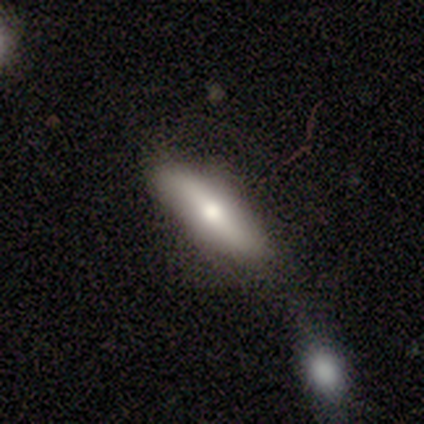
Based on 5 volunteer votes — Q: Smooth or featured?
A: featured or disk (60%); runner-up: smooth (20%)
Q: Edge-on disk?
A: yes (67%); runner-up: no (33%)
Q: Edge-on bulge?
A: rounded (100%)
Q: Merging?
A: minor disturbance (75%); runner-up: merger (25%)